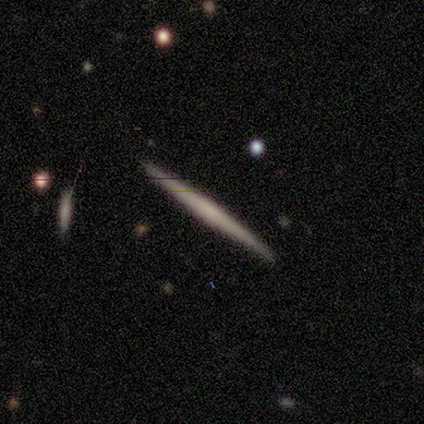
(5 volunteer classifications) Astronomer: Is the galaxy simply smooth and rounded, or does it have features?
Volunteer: smooth — 60% (runner-up: featured or disk, 40%).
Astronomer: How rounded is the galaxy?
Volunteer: cigar-shaped — 100%.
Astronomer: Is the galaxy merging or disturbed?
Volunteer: none — 100%.